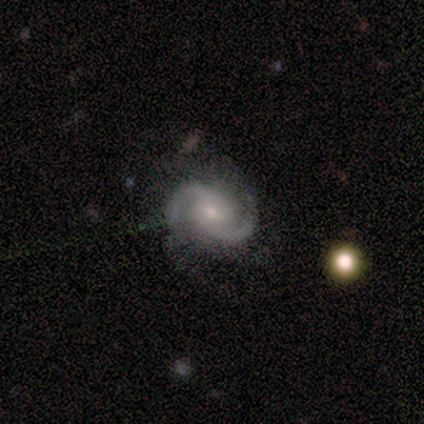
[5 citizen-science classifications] Overall: featured or disk (100%). Edge-on disk: no (80%). Bar: no (75%). Spiral arms: yes (100%). Spiral arm count: 2 (100%). Spiral winding: tight (50%, tied with medium). Bulge size: moderate (50%, tied with small). Merging: none (60%; minor disturbance 40%).